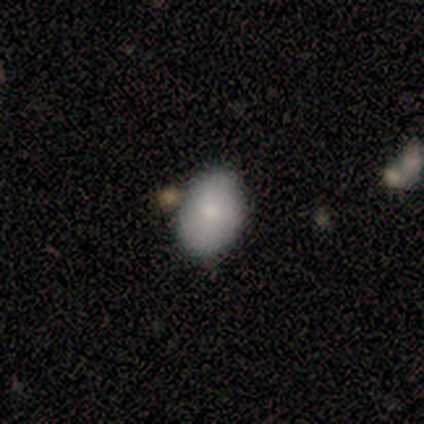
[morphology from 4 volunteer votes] smooth-or-featured: smooth: 100% | featured or disk: 0% | star or artifact: 0%
  how-rounded: in between: 75% | round: 25% | cigar-shaped: 0%
  merging: merger: 50% | none: 25% | minor disturbance: 25% | major disturbance: 0%